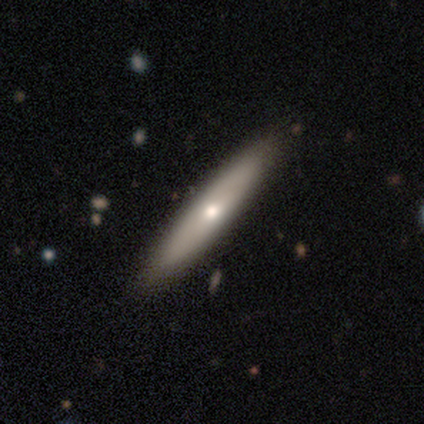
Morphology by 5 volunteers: Smooth or featured: smooth — 60% (featured or disk — 40%)
How rounded: cigar-shaped — 100%
Merging: none — 80% (minor disturbance — 20%)